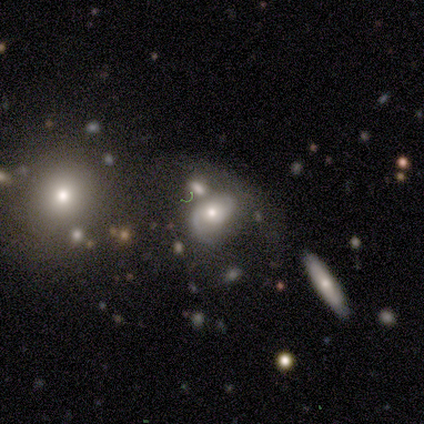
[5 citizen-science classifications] Q: Smooth or featured?
A: featured or disk (100%)
Q: Edge-on disk?
A: no (80%); runner-up: yes (20%)
Q: Bar?
A: no (75%); runner-up: weak (25%)
Q: Spiral arms?
A: yes (75%); runner-up: no (25%)
Q: Spiral winding?
A: loose (67%); runner-up: tight (33%)
Q: Spiral arm count?
A: 2 (67%); runner-up: 1 (33%)
Q: Bulge size?
A: small (75%); runner-up: moderate (25%)
Q: Merging?
A: none (40%); tied with: merger (40%)